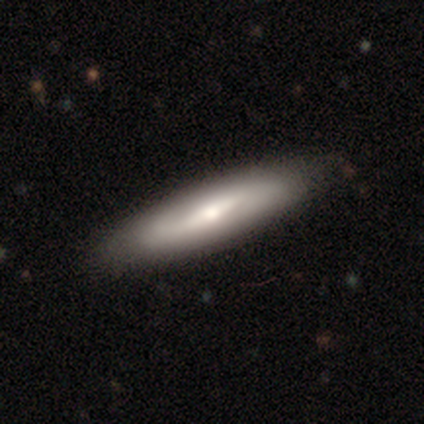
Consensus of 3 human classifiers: Q: Smooth or featured?
A: smooth (100%)
Q: How rounded?
A: cigar-shaped (67%); runner-up: in between (33%)
Q: Merging?
A: none (67%); runner-up: major disturbance (33%)